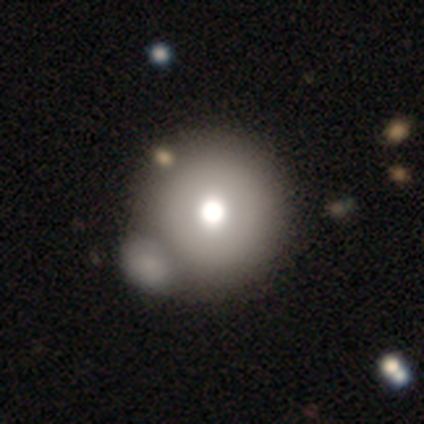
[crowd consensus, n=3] Smooth or featured: smooth — 100%
How rounded: round — 100%
Merging: none — 100%